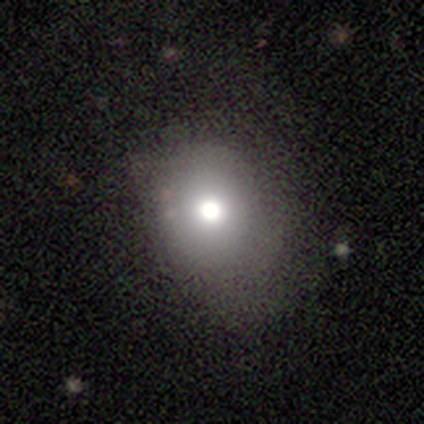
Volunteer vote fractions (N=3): Volunteers were most divided on "smooth or featured": smooth: 67%, featured or disk: 33%, star or artifact: 0%. More confident: how rounded — in between (100%); merging — none (100%).